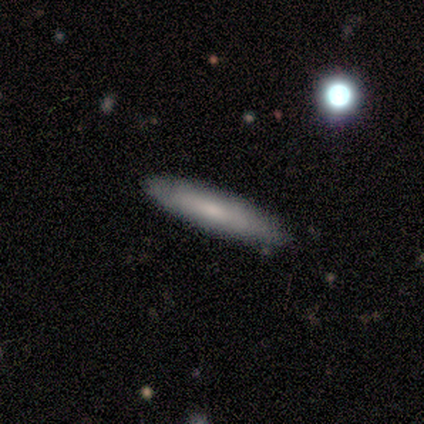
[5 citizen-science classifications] This is clearly a smooth galaxy (80%). How rounded: clearly cigar-shaped (100%). Merging: clearly none (100%).